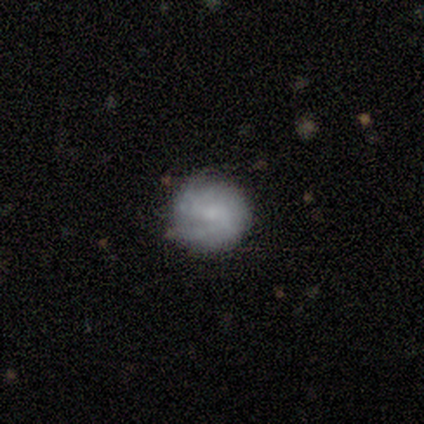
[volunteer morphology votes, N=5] Smooth or featured?
  - smooth: 60% *
  - featured or disk: 40%
  - star or artifact: 0%
How rounded?
  - round: 100% *
  - in between: 0%
  - cigar-shaped: 0%
Merging?
  - none: 100% *
  - minor disturbance: 0%
  - major disturbance: 0%
  - merger: 0%